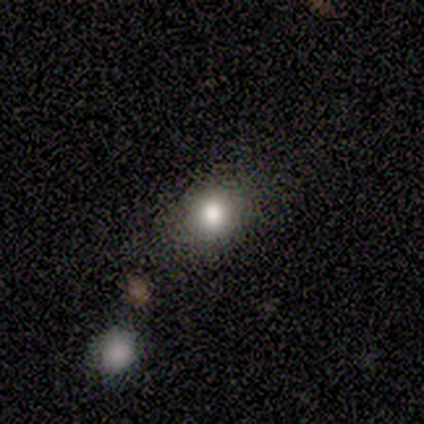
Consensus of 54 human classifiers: smooth_or_featured: smooth (p=0.78) [alt: featured or disk p=0.15]
how_rounded: round (p=0.60) [alt: in between p=0.38]
merging: none (p=0.76) [alt: minor disturbance p=0.18]